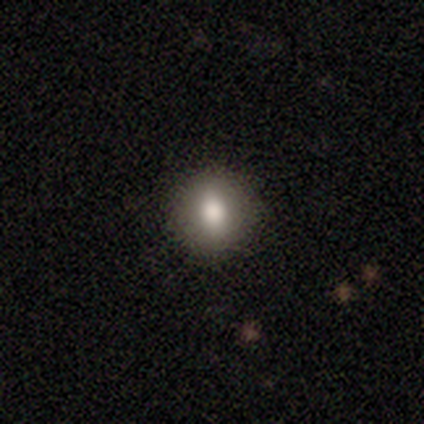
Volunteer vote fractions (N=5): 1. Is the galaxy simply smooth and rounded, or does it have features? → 100% smooth, 0% featured or disk, 0% star or artifact.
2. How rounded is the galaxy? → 80% round, 20% in between, 0% cigar-shaped.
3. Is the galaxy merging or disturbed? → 100% none, 0% minor disturbance, 0% major disturbance, 0% merger.